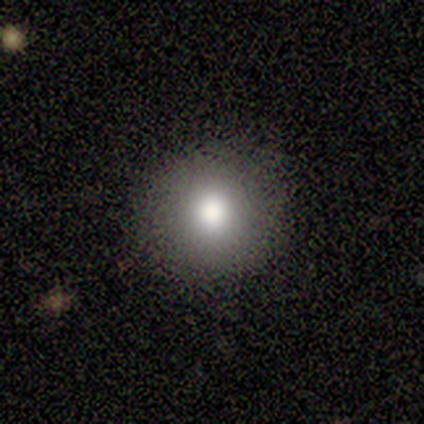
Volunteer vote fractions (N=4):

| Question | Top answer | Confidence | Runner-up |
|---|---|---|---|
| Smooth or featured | smooth | 75% | featured or disk (25%) |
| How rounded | round | 100% | — |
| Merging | none | 100% | — |